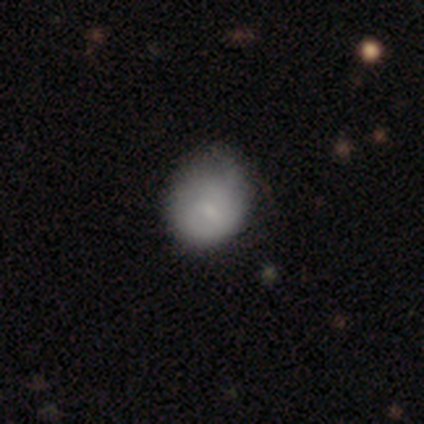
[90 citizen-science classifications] Morphology: type=smooth (73%); roundness=round (62%); merging=none (49%).